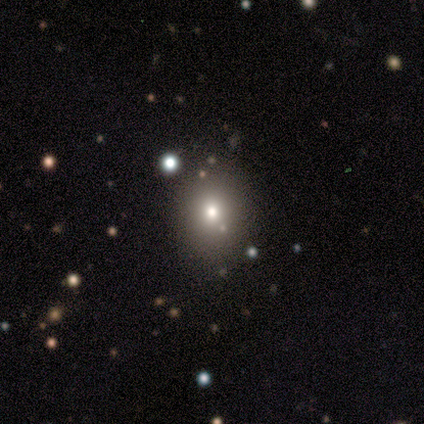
A star or artifact, not a galaxy (50%).